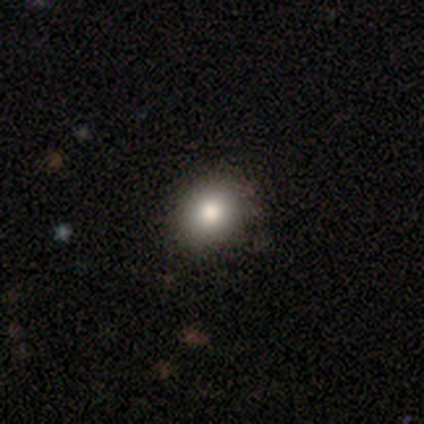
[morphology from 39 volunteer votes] A smooth galaxy with no disk features (74%) that is round (79%).

Vote fractions:
- Smooth or featured? smooth: 74% / star or artifact: 18% / featured or disk: 8%
- How rounded? round: 79% / in between: 21% / cigar-shaped: 0%
- Merging? none: 94% / minor disturbance: 6% / major disturbance: 0% / merger: 0%